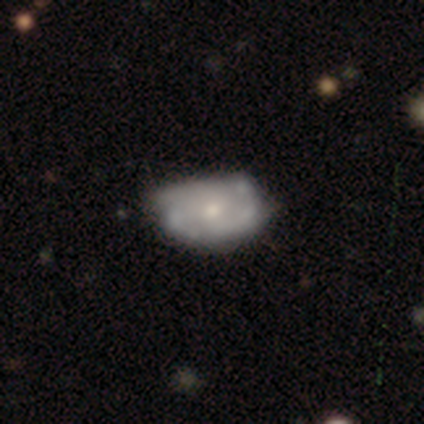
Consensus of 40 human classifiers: Smooth or featured: featured or disk — 72% (smooth — 25%)
Edge-on disk: no — 93% (yes — 7%)
Bar: no — 93% (weak — 7%)
Spiral arms: yes — 56% (no — 44%)
Spiral winding: tight — 60% (medium — 40%)
Spiral arm count: can't tell — 67% (3 — 13%)
Bulge size: moderate — 44% (tied with small — 44%)
Merging: none — 38% (minor disturbance — 18%)